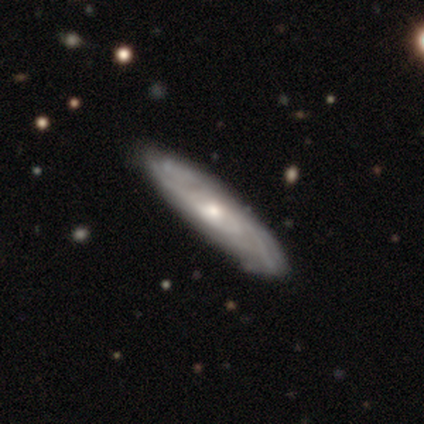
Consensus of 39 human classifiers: A featured or disk galaxy (87%) with no bar (81%), tight (70%) spiral arms (88%) and a small central bulge (54%).

Vote fractions:
- Smooth or featured? featured or disk: 87% / smooth: 13% / star or artifact: 0%
- Edge-on disk? no: 76% / yes: 24%
- Bar? no: 81% / weak: 15% / strong: 4%
- Spiral arms? yes: 88% / no: 12%
- Spiral winding? tight: 70% / medium: 26% / loose: 4%
- Spiral arm count? can't tell: 87% / more than 4: 9% / 2: 4% / 1: 0% / 3: 0% / 4: 0%
- Bulge size? small: 54% / moderate: 38% / large: 4% / none: 4% / dominant: 0%
- Merging? none: 85% / minor disturbance: 10% / major disturbance: 3% / merger: 3%